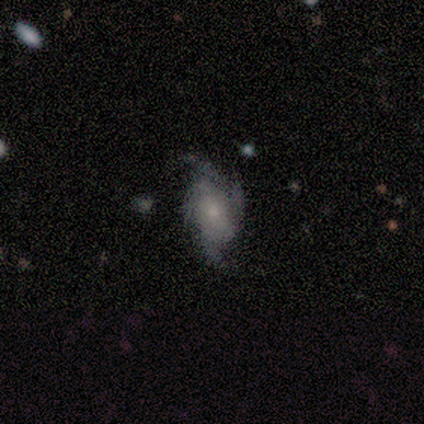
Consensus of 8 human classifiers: Smooth or featured: featured or disk — 100%
Edge-on disk: no — 100%
Bar: no — 75% (strong — 12%)
Spiral arms: yes — 100%
Spiral winding: medium — 50% (tight — 25%)
Spiral arm count: 4 — 62% (3 — 25%)
Bulge size: small — 50% (moderate — 38%)
Merging: none — 62% (minor disturbance — 38%)